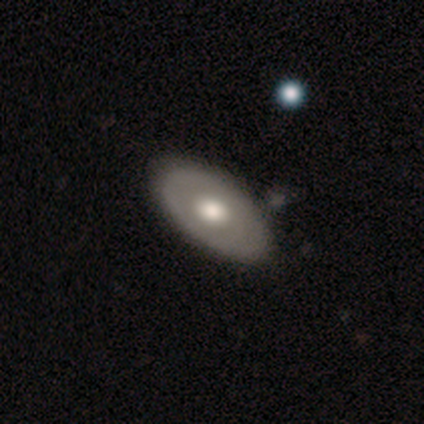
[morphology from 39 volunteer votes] A featured or disk galaxy (59%) with no bar (100%), no spiral arms (89%) and a moderate central bulge (58%).

Vote fractions:
- Smooth or featured? featured or disk: 59% / smooth: 38% / star or artifact: 3%
- Edge-on disk? no: 83% / yes: 17%
- Bar? no: 100% / strong: 0% / weak: 0%
- Spiral arms? no: 89% / yes: 11%
- Bulge size? moderate: 58% / large: 42% / dominant: 0% / small: 0% / none: 0%
- Merging? none: 61% / merger: 8% / minor disturbance: 5% / major disturbance: 0%